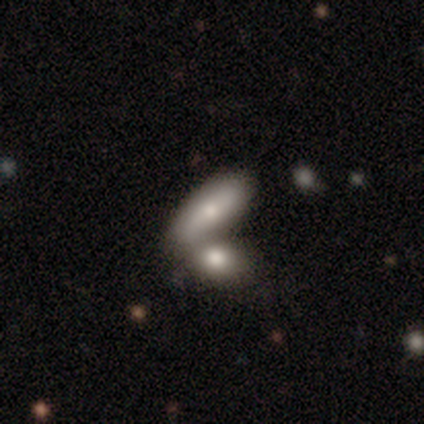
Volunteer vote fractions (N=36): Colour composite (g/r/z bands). It shows a smooth galaxy with no disk features (81%) that is in between round and cigar-shaped (72%). Merging: merger (68%).